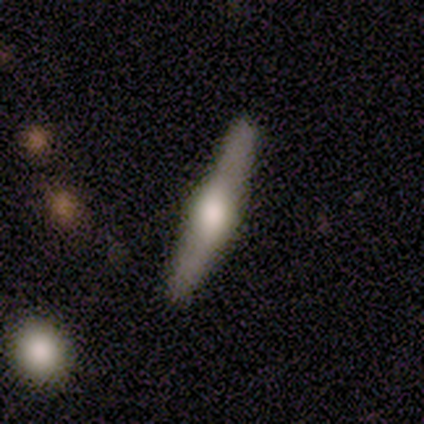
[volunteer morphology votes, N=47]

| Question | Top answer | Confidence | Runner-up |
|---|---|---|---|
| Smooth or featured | featured or disk | 72% | smooth (23%) |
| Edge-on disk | yes | 97% | no (3%) |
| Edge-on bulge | rounded | 85% | boxy (15%) |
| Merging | none | 76% | minor disturbance (20%) |